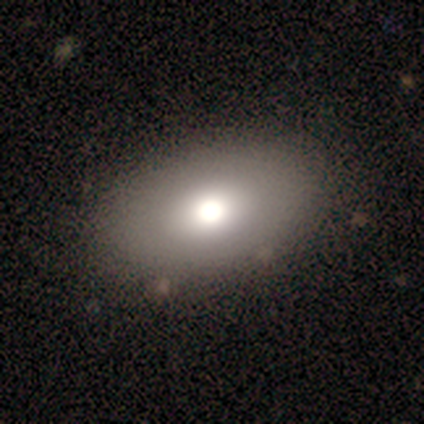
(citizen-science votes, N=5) Smooth or featured? 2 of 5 (40%, tied with featured or disk) said smooth. How rounded? 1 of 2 (50%, tied with in between) said round. Merging? 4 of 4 (100%) said none.